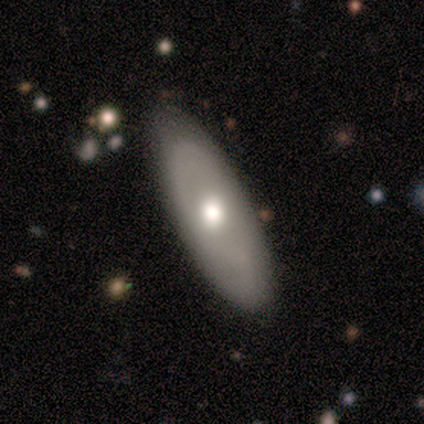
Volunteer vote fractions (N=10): Q: Smooth or featured?
A: smooth (50%); tied with: featured or disk (50%)
Q: How rounded?
A: in between (80%); runner-up: cigar-shaped (20%)
Q: Merging?
A: none (80%); runner-up: minor disturbance (20%)